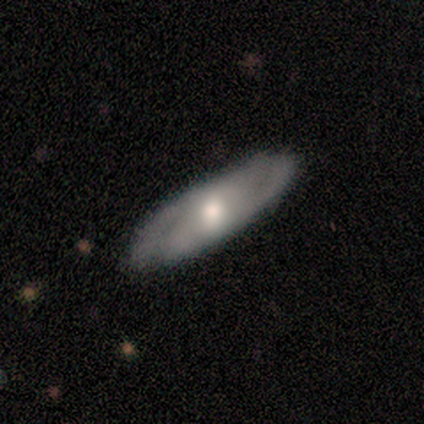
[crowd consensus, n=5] Smooth or featured? 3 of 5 (60%) said featured or disk. Edge-on disk? 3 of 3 (100%) said no. Bar? 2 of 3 (67%) said weak. Spiral arms? 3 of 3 (100%) said yes. Spiral winding? 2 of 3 (67%) said medium. Spiral arm count? 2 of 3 (67%) said 2. Bulge size? 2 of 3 (67%) said moderate. Merging? 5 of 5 (100%) said none.